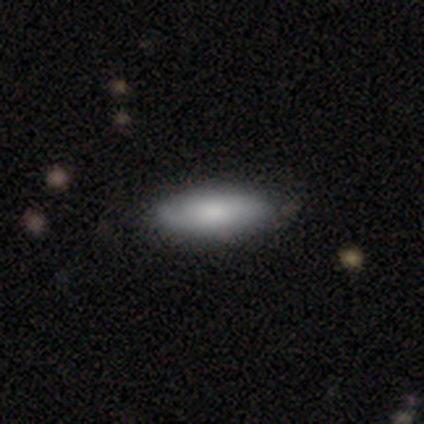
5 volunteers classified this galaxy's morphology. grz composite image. It shows a smooth galaxy with no disk features (100%) that is in between round and cigar-shaped (60%). Merging: minor disturbance (60%).